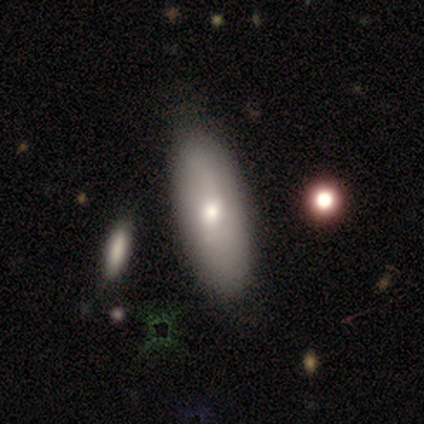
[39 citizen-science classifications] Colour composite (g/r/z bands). It shows a smooth galaxy with no disk features (64%) that is in between round and cigar-shaped (88%). Merging: none (70%).